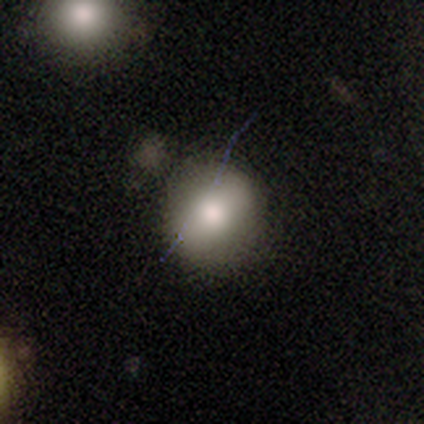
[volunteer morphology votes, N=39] Smooth or featured? smooth (77%)
How rounded? round (93%)
Merging? none (71%)